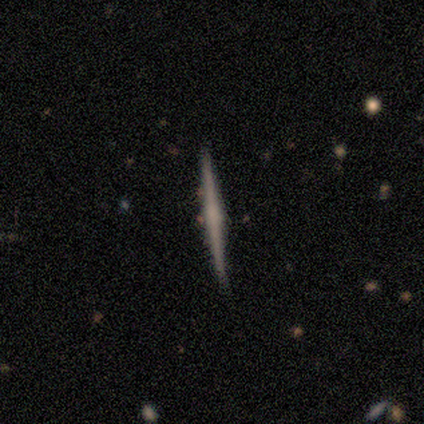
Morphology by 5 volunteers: This appears to be a featured or disk galaxy (60%) viewed edge-on (100%) with no central bulge (67%). Merging: none (80%).